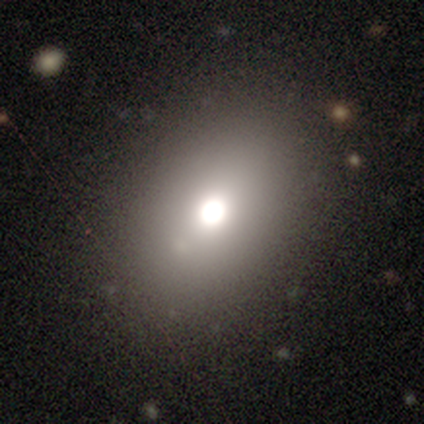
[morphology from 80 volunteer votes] A smooth galaxy with no disk features (76%) that is in between round and cigar-shaped (75%). Merging: none (40%).